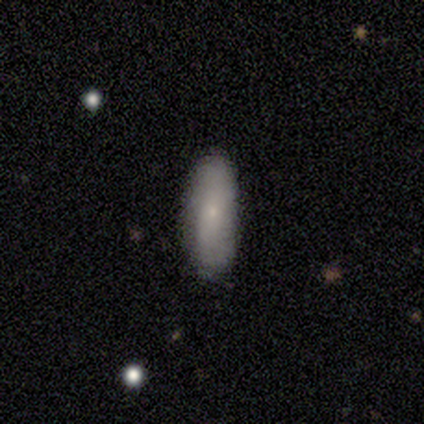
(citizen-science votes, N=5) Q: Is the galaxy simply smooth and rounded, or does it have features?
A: smooth — 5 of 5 (100%).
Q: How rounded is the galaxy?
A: in between — 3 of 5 (60%).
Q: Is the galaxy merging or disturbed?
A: none — 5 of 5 (100%).